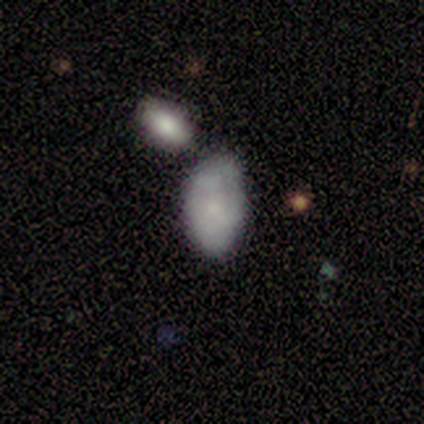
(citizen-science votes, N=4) Smooth or featured? 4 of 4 (100%) said smooth. How rounded? 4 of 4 (100%) said in between. Merging? 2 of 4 (50%) said minor disturbance.